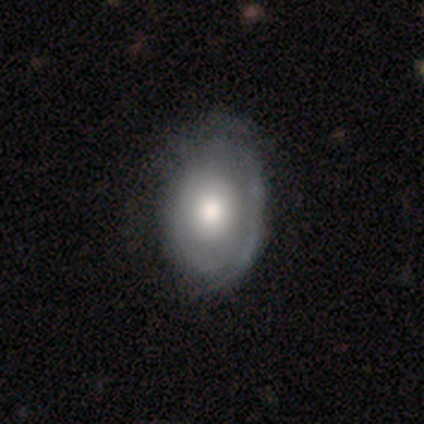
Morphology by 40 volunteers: Smooth or featured? featured or disk (62%)
Edge-on disk? no (96%)
Bar? no (96%)
Spiral arms? yes (50%, tied with no)
Spiral winding? tight (75%)
Spiral arm count? can't tell (75%)
Bulge size? moderate (62%)
Merging? none (39%)